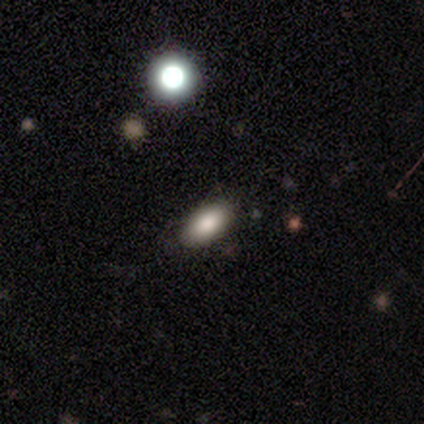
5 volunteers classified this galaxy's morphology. Overall: smooth (100%). How rounded: in between (100%). Merging: none (100%).